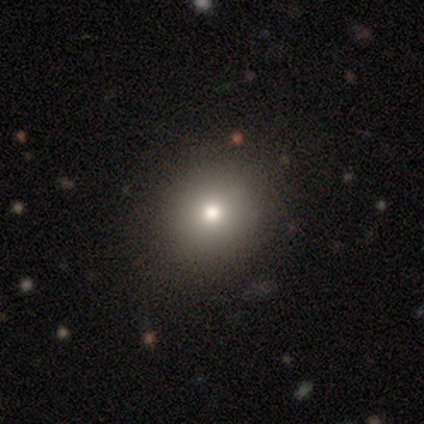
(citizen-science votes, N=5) Smooth or featured: smooth — 100%
How rounded: round — 80% (in between — 20%)
Merging: none — 100%